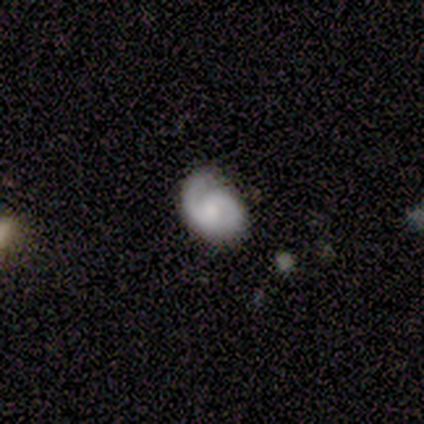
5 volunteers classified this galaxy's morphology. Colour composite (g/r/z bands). It shows a featured or disk galaxy (80%) with no bar (75%), 2 (75%) loose (50%) spiral arms (100%) and a small central bulge (50%). Merging: none (40%, tied with major disturbance).